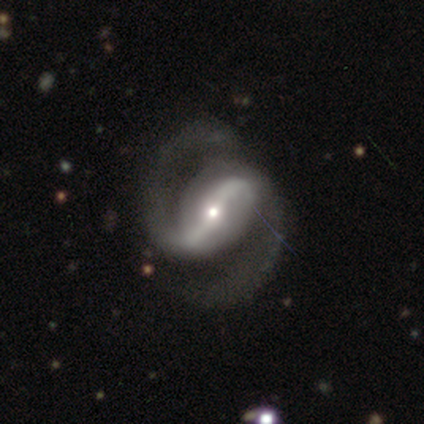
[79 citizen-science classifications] Morphology: type=featured or disk (99%); edge-on=no (96%); bar=strong (77%); spiral arms=yes (97%); winding=medium (56%); arm count=2 (97%); bulge=small (53%); merging=none (37%).